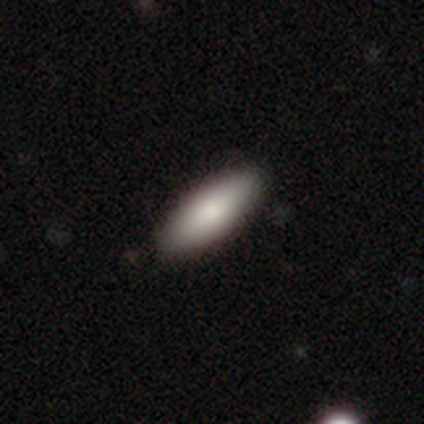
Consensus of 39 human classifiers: Smooth or featured?
  - smooth: 82% *
  - featured or disk: 13%
  - star or artifact: 5%
How rounded?
  - in between: 81% *
  - cigar-shaped: 19%
  - round: 0%
Merging?
  - none: 76% *
  - minor disturbance: 5%
  - merger: 3%
  - major disturbance: 0%